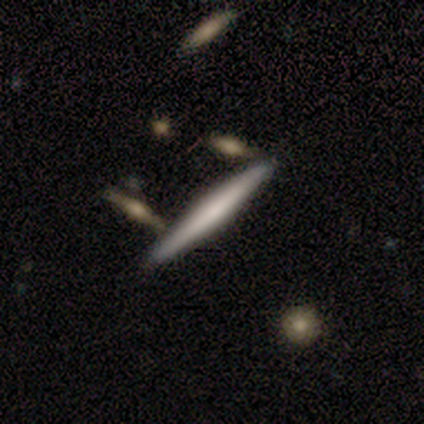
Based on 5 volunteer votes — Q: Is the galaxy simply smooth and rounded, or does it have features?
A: smooth — 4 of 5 (80%).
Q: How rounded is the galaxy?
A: cigar-shaped — 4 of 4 (100%).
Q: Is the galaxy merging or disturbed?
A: none — 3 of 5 (60%).